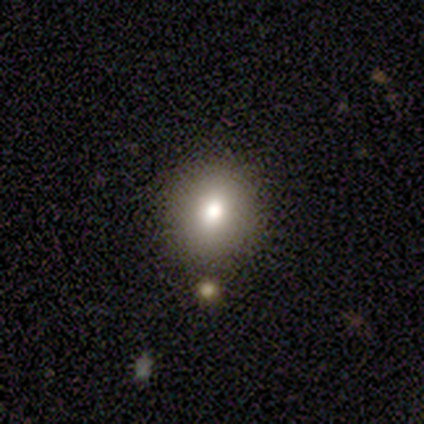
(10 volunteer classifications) Smooth or featured? 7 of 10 (70%) said smooth. How rounded? 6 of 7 (86%) said round. Merging? 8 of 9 (89%) said none.